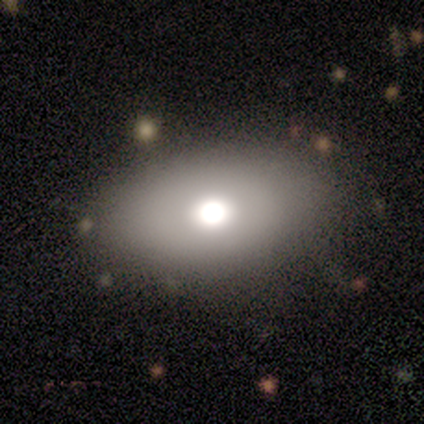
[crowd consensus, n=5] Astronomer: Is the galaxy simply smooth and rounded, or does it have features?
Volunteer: smooth — 60% (runner-up: featured or disk, 40%).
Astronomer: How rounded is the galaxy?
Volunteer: in between — 100%.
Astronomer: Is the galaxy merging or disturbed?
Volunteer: none — 100%.